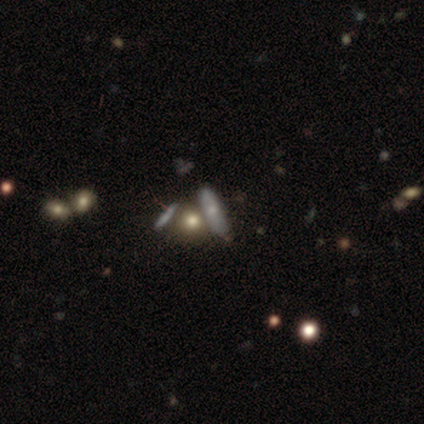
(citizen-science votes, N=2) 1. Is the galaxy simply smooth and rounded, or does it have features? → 100% smooth, 0% featured or disk, 0% star or artifact.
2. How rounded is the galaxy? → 50% round (tied), 50% in between (tied), 0% cigar-shaped.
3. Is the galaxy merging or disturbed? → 100% none, 0% minor disturbance, 0% major disturbance, 0% merger.